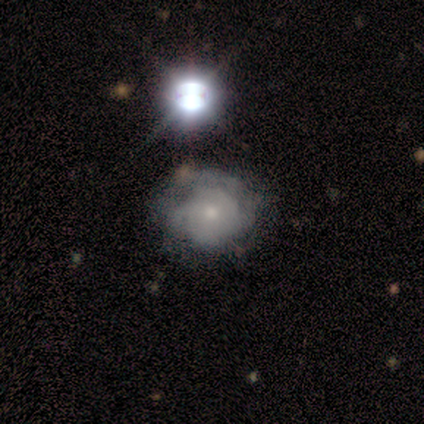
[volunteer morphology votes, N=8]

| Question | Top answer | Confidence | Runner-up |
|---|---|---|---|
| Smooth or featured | featured or disk | 50% | smooth (38%) |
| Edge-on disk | no | 75% | yes (25%) |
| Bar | no | 100% | — |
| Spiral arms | yes | 67% | no (33%) |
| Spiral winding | tight | 50% | tied: medium (50%) |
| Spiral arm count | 2 | 100% | — |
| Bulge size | moderate | 100% | — |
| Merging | major disturbance | 43% | none (29%) |